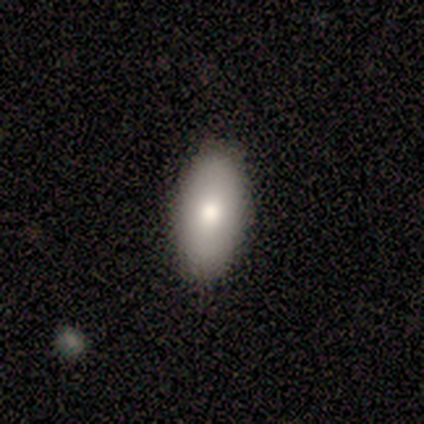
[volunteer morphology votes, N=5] Smooth or featured? 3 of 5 (60%) said smooth. How rounded? 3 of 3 (100%) said in between. Merging? 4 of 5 (80%) said none.